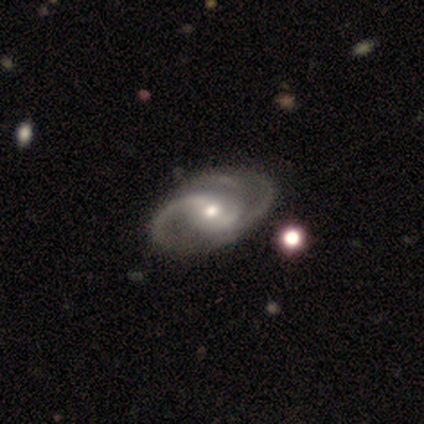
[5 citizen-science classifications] smooth_or_featured: featured or disk (p=1.00)
disk_edge_on: no (p=0.80) [alt: yes p=0.20]
bar: no (p=0.50) [alt: strong p=0.25]
has_spiral_arms: yes (p=1.00)
spiral_winding: loose (p=0.50) [alt: tight p=0.25]
spiral_arm_count: 2 (p=1.00)
bulge_size: moderate (p=0.50) [alt: large p=0.25]
merging: none (p=0.80) [alt: minor disturbance p=0.20]